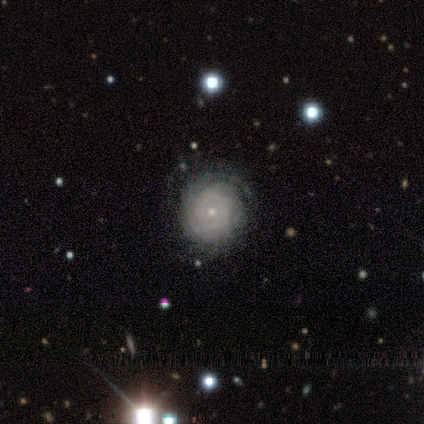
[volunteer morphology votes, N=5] type=featured or disk (100%); edge-on=no (100%); bar=no (100%); spiral arms=yes (100%); winding=tight (100%); arm count=can't tell (80%); bulge=small (80%); merging=none (80%).